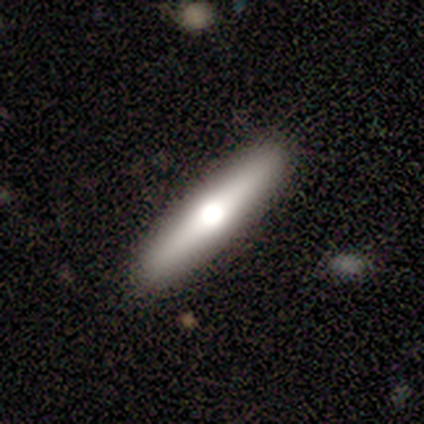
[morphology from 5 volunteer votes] This appears to be a smooth galaxy with no disk features (80%) that is cigar-shaped (100%). Merging: none (100%).